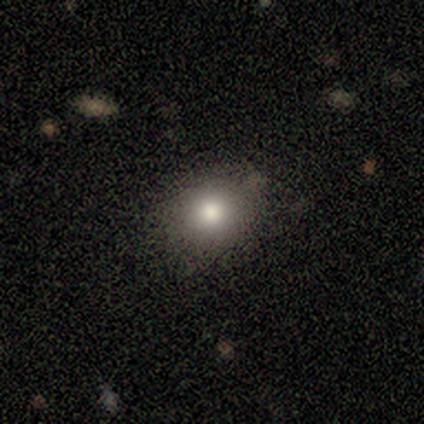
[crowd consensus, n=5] Q: Smooth or featured?
A: smooth (60%); runner-up: featured or disk (40%)
Q: How rounded?
A: round (67%); runner-up: in between (33%)
Q: Merging?
A: none (100%)